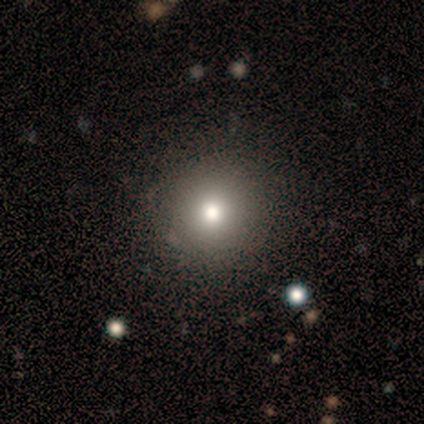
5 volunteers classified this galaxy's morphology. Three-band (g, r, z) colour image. It shows a star or artifact, not a galaxy (60%).